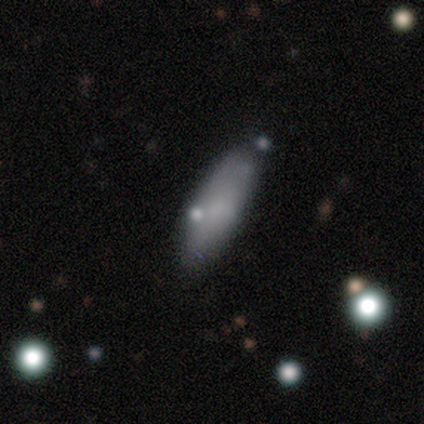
This is likely a smooth galaxy (67%). How rounded: likely in between (67%). Merging: likely none (78%).